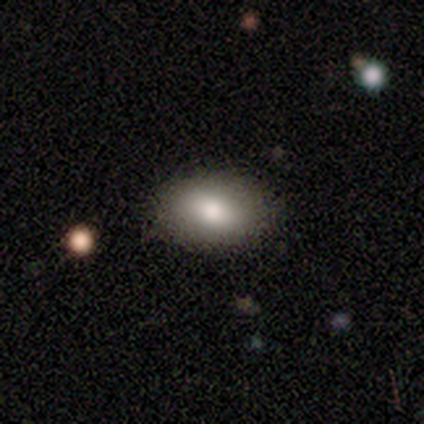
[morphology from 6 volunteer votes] A smooth galaxy with no disk features (50%) that is in between round and cigar-shaped (67%).

Vote fractions:
- Smooth or featured? smooth: 50% / featured or disk: 33% / star or artifact: 17%
- How rounded? in between: 67% / round: 33% / cigar-shaped: 0%
- Merging? none: 100% / minor disturbance: 0% / major disturbance: 0% / merger: 0%